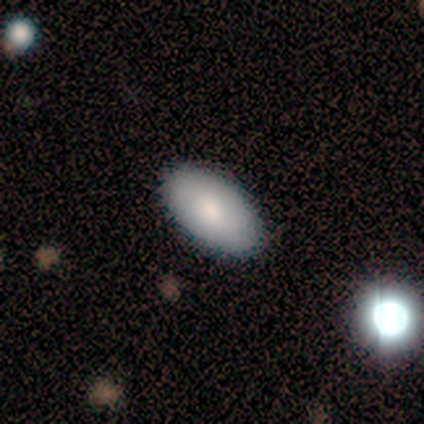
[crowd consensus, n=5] smooth 80%, star or artifact 20%, featured or disk 0%. Down the decision tree: how rounded — in between (100%); merging — none (100%).